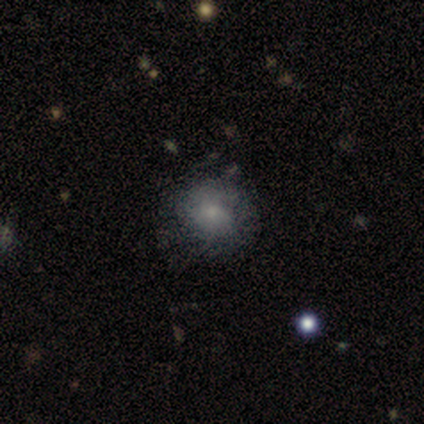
Smooth or featured?
  - smooth: 63% *
  - featured or disk: 32%
  - star or artifact: 5%
How rounded?
  - round: 79% *
  - in between: 21%
  - cigar-shaped: 0%
Merging?
  - none: 67% *
  - minor disturbance: 25%
  - major disturbance: 8%
  - merger: 0%